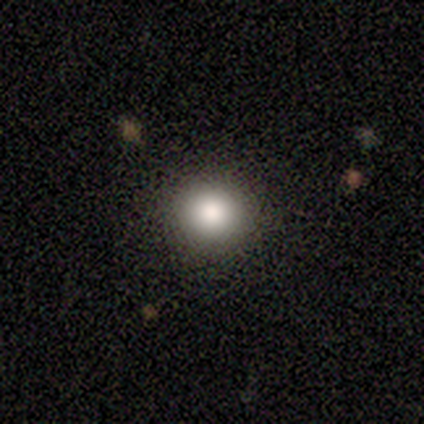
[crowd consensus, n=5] smooth 80%, featured or disk 20%, star or artifact 0%. Down the decision tree: how rounded — round (75%); merging — none (100%).